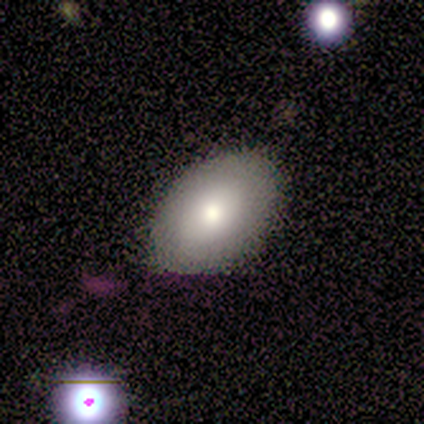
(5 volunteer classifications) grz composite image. It shows a smooth galaxy with no disk features (60%) that is in between round and cigar-shaped (100%). Merging: none (100%).